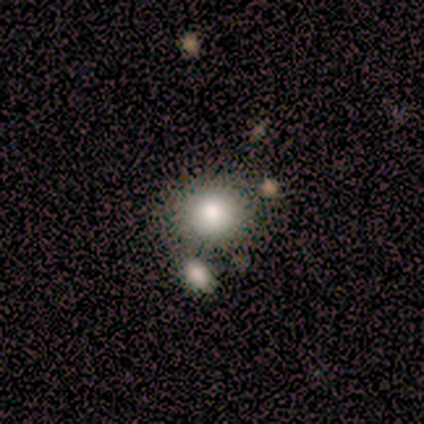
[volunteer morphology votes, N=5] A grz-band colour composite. It shows a smooth galaxy with no disk features (80%) that is round (75%). Merging: none (80%).